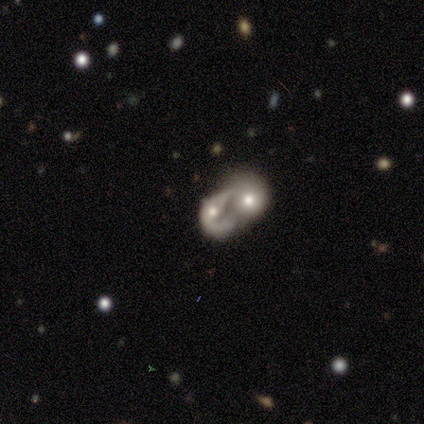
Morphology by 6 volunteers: Smooth or featured? 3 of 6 (50%) said smooth. How rounded? 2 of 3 (67%) said in between. Merging? 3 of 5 (60%) said merger.